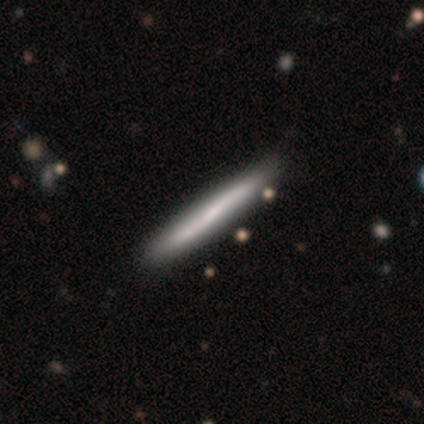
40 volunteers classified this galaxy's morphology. Smooth or featured?
  - featured or disk: 52% *
  - smooth: 45%
  - star or artifact: 2%
Edge-on disk?
  - yes: 90% *
  - no: 10%
Edge-on bulge?
  - none: 63% *
  - rounded: 26%
  - boxy: 11%
Merging?
  - none: 49% *
  - minor disturbance: 5%
  - merger: 5%
  - major disturbance: 0%